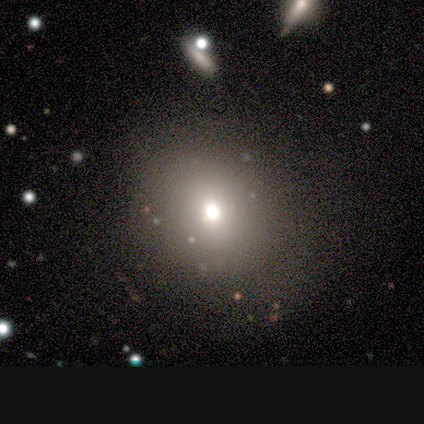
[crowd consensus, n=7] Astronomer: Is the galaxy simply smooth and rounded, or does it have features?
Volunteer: smooth — 57%.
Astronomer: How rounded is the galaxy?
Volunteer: round — 75%.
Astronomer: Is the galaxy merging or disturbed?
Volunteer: none — 80%.